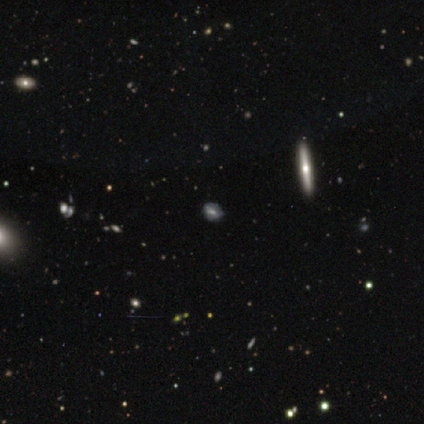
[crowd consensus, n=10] A smooth galaxy with no disk features (60%) that is round (50%, tied with in between). Merging: none (62%).